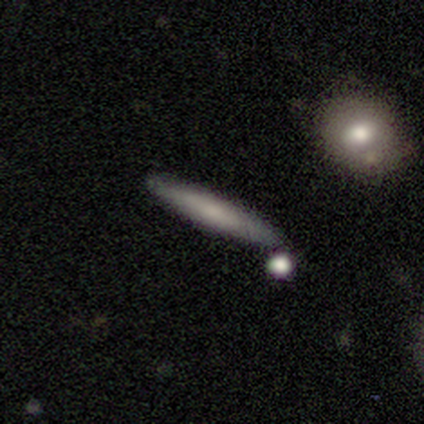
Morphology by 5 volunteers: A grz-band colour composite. It shows a featured or disk galaxy (60%) viewed edge-on (100%) with a boxy central bulge (33%, tied with none and rounded). Merging: none (80%).